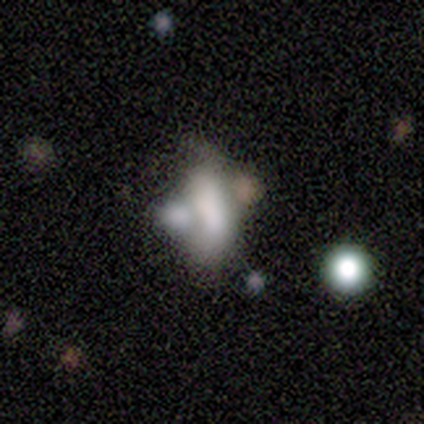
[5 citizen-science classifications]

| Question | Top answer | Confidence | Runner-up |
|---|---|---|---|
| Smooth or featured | smooth | 60% | featured or disk (20%) |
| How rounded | in between | 100% | — |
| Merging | merger | 100% | — |